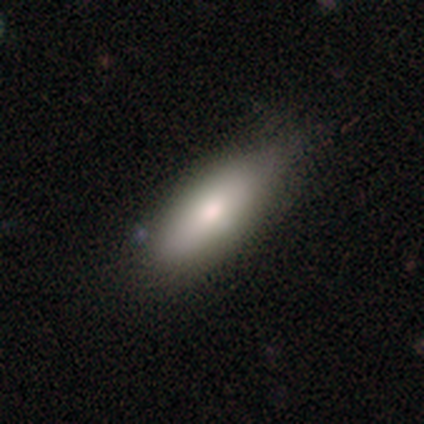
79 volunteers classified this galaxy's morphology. Smooth or featured? 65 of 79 (82%) said smooth. How rounded? 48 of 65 (74%) said in between. Merging? 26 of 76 (34%) said none.